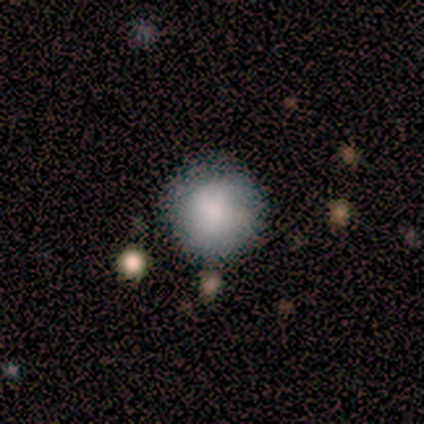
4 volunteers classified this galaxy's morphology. Consensus on every question: smooth or featured — smooth (100%); how rounded — round (100%); merging — none (100%).